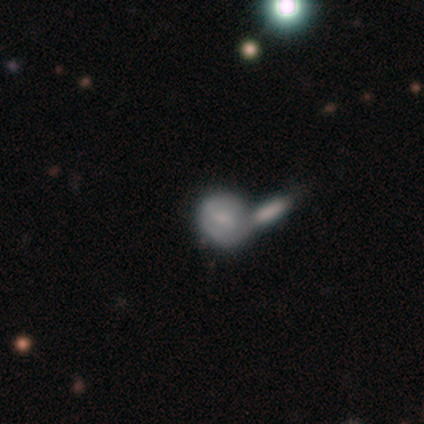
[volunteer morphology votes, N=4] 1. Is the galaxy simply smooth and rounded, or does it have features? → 75% smooth, 25% featured or disk, 0% star or artifact.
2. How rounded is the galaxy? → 67% round, 33% in between, 0% cigar-shaped.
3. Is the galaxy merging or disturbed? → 75% merger, 25% minor disturbance, 0% none, 0% major disturbance.